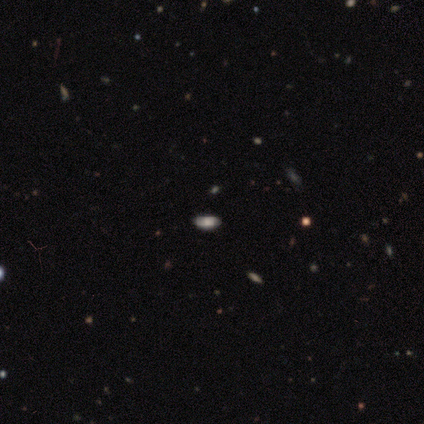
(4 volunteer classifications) A smooth galaxy with no disk features (100%) that is in between round and cigar-shaped (75%). Merging: none (100%).